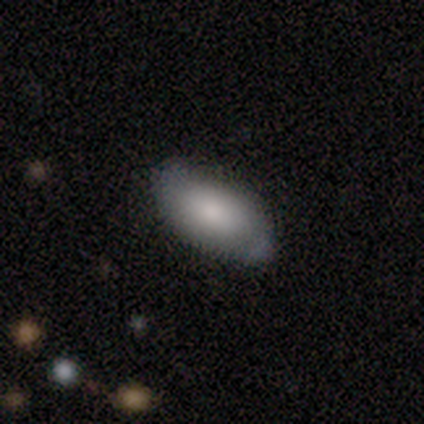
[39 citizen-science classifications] Q: Smooth or featured?
A: smooth (72%); runner-up: featured or disk (21%)
Q: How rounded?
A: in between (93%); runner-up: round (4%)
Q: Merging?
A: none (75%); runner-up: minor disturbance (25%)